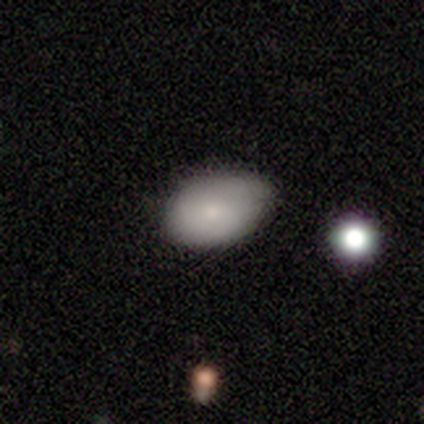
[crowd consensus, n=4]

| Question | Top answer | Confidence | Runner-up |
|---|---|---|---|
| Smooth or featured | smooth | 75% | featured or disk (25%) |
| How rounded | in between | 67% | round (33%) |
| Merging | none | 75% | minor disturbance (25%) |